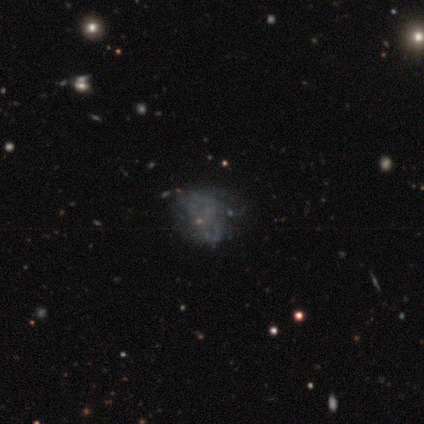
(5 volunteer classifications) Overall: featured or disk (60%; star or artifact 40%). Edge-on disk: no (100%). Bar: no (100%). Spiral arms: no (67%; yes 33%). Bulge size: none (100%). Merging: none (67%; major disturbance 33%).